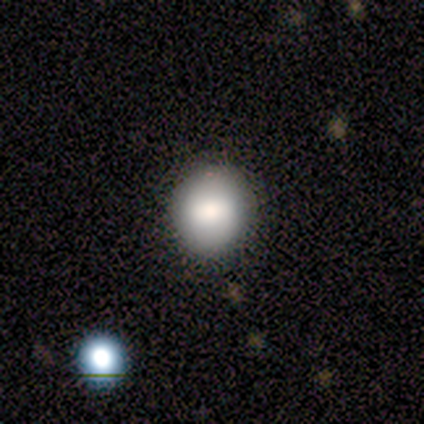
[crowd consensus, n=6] Q: Smooth or featured?
A: smooth (100%)
Q: How rounded?
A: round (67%); runner-up: in between (33%)
Q: Merging?
A: none (83%); runner-up: merger (17%)